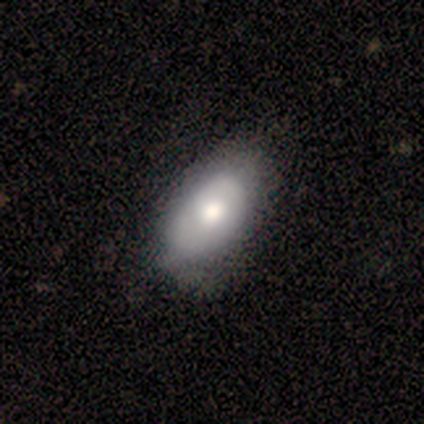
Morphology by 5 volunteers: This appears to be a smooth galaxy with no disk features (80%) that is in between round and cigar-shaped (100%). Merging: none (80%).